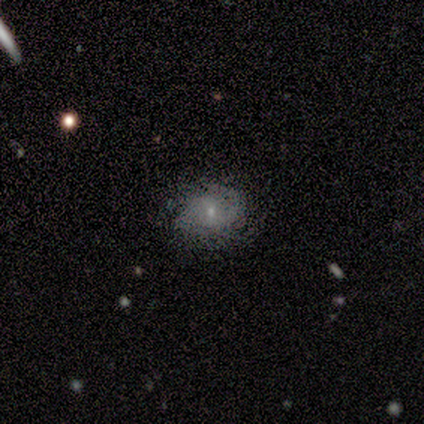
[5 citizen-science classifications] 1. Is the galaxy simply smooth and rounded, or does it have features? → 60% featured or disk, 40% smooth, 0% star or artifact.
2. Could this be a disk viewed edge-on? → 100% no, 0% yes.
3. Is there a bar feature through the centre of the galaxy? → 100% no, 0% strong, 0% weak.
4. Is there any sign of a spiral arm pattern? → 67% yes, 33% no.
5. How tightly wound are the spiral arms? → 50% medium (tied), 50% loose (tied), 0% tight.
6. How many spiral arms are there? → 100% 1, 0% 2, 0% 3, 0% 4, 0% more than 4, 0% can't tell.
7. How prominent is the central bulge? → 100% small, 0% dominant, 0% large, 0% moderate, 0% none.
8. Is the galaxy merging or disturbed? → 80% none, 20% minor disturbance, 0% major disturbance, 0% merger.